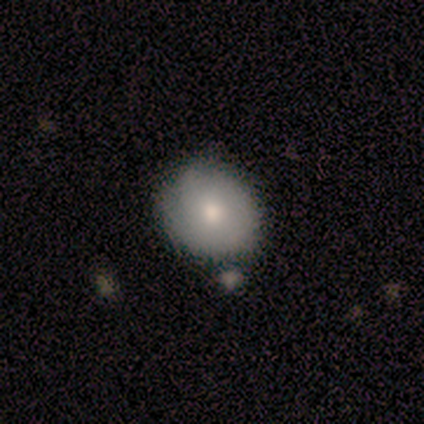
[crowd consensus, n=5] This appears to be a smooth galaxy with no disk features (80%) that is round (100%). Merging: none (80%).